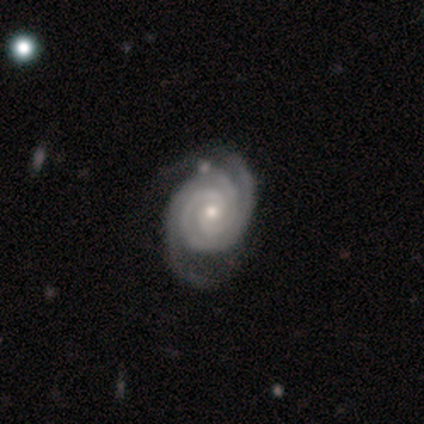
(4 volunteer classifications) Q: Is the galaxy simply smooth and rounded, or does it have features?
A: featured or disk — 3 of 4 (75%).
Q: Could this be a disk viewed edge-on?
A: no — 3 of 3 (100%).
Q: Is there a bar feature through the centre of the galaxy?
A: no — 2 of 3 (67%).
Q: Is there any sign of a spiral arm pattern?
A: yes — 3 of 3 (100%).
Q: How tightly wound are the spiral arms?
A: tight — 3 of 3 (100%).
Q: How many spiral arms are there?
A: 2 — 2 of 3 (67%).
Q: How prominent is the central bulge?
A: moderate — 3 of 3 (100%).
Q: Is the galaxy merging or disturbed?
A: none — 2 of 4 (50%).